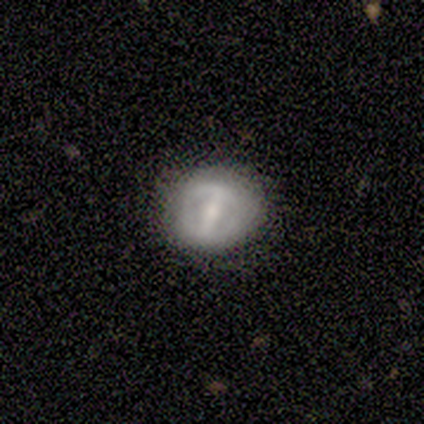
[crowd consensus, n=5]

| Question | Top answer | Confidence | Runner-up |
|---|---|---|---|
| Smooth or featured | featured or disk | 60% | smooth (40%) |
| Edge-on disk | no | 100% | — |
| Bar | strong | 33% | tied: weak (33%), no (33%) |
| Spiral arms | no | 100% | — |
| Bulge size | small | 100% | — |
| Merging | none | 80% | minor disturbance (20%) |